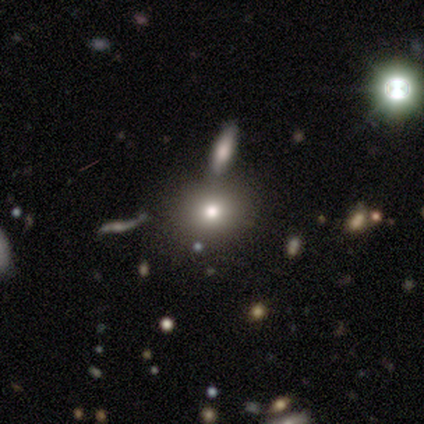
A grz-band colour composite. It shows a smooth galaxy with no disk features (62%) that is round (71%). Merging: none (88%).